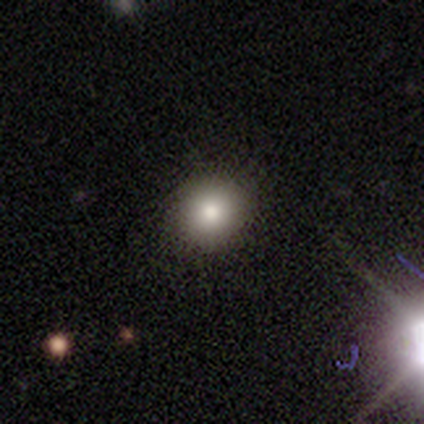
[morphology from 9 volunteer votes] Smooth or featured? smooth (100%)
How rounded? round (89%)
Merging? none (100%)